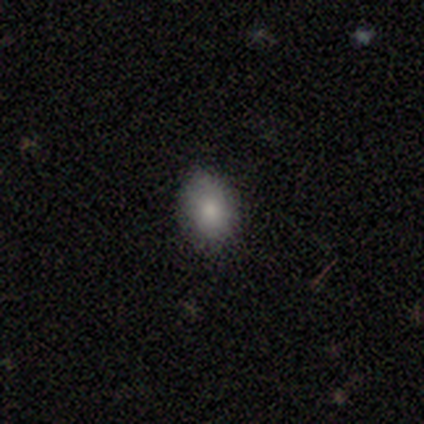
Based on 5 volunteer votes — This appears to be a smooth galaxy with no disk features (100%) that is in between round and cigar-shaped (80%). Merging: none (100%).